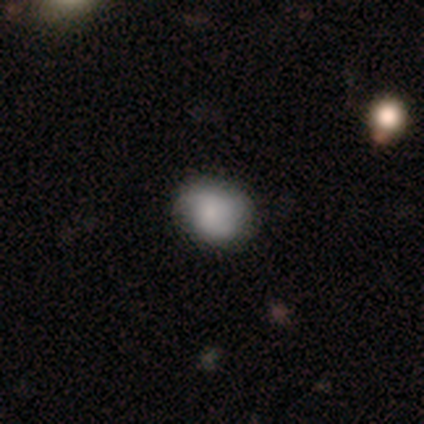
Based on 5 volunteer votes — Smooth or featured: featured or disk — 60% (smooth — 40%)
Edge-on disk: no — 100%
Bar: weak — 100%
Spiral arms: yes — 67% (no — 33%)
Spiral winding: medium — 50% (tied with loose — 50%)
Spiral arm count: 2 — 100%
Bulge size: moderate — 67% (small — 33%)
Merging: none — 60% (minor disturbance — 20%)